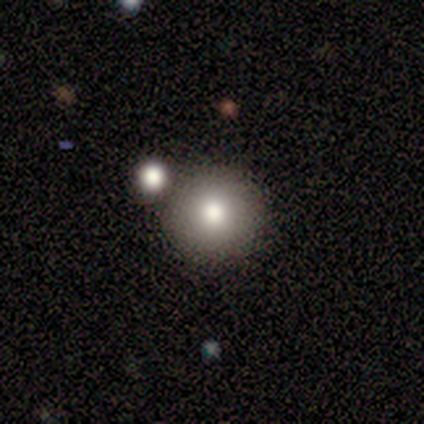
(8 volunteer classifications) Overall: smooth (88%). How rounded: round (100%). Merging: none (57%; minor disturbance 29%).